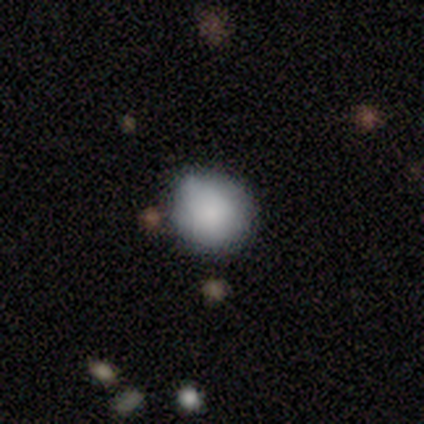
A smooth galaxy with no disk features (80%) that is round (75%). Merging: none (60%).